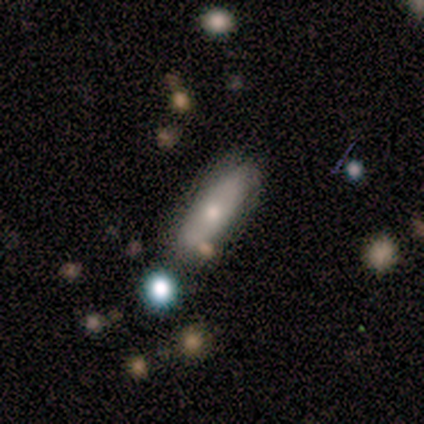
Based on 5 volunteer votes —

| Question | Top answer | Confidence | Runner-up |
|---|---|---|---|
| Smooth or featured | smooth | 60% | featured or disk (40%) |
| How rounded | in between | 67% | cigar-shaped (33%) |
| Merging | none | 60% | minor disturbance (20%) |